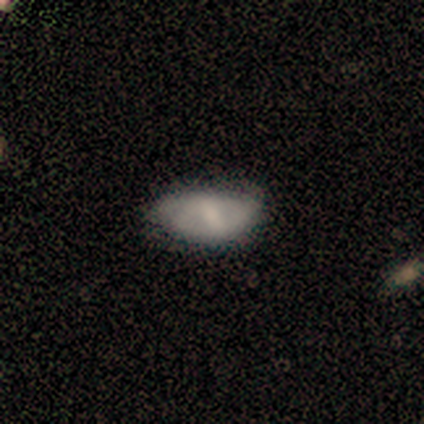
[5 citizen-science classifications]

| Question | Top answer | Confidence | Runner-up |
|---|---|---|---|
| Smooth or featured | featured or disk | 60% | smooth (40%) |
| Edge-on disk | no | 100% | — |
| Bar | strong | 67% | weak (33%) |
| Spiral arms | no | 100% | — |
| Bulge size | moderate | 67% | small (33%) |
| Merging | minor disturbance | 60% | none (40%) |